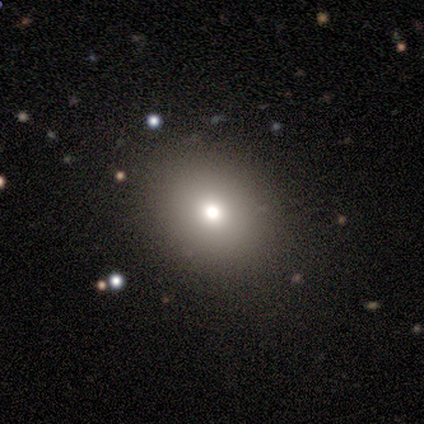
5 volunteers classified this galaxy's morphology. Q: Smooth or featured?
A: smooth (80%); runner-up: featured or disk (20%)
Q: How rounded?
A: round (100%)
Q: Merging?
A: none (80%); runner-up: major disturbance (20%)